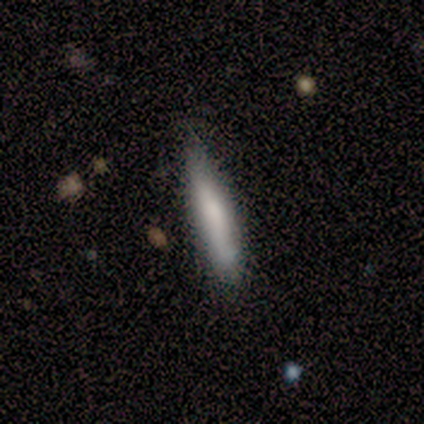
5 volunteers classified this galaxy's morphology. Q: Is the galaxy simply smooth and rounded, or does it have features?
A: smooth — 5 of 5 (100%).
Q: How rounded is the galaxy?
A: cigar-shaped — 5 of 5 (100%).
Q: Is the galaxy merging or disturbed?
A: minor disturbance — 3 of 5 (60%).